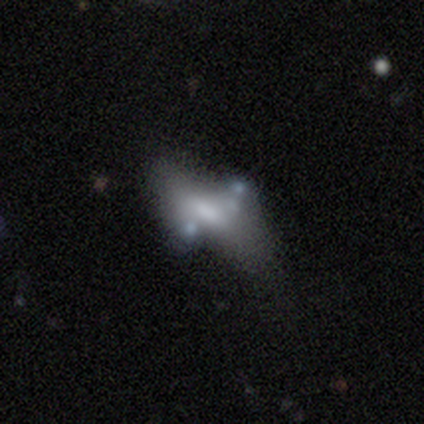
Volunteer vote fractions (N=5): A featured or disk galaxy (80%) with no bar (100%), no spiral arms (100%) and a moderate central bulge (50%).

Vote fractions:
- Smooth or featured? featured or disk: 80% / smooth: 20% / star or artifact: 0%
- Edge-on disk? no: 100% / yes: 0%
- Bar? no: 100% / strong: 0% / weak: 0%
- Spiral arms? no: 100% / yes: 0%
- Bulge size? moderate: 50% / small: 25% / none: 25% / dominant: 0% / large: 0%
- Merging? major disturbance: 60% / minor disturbance: 20% / merger: 20% / none: 0%